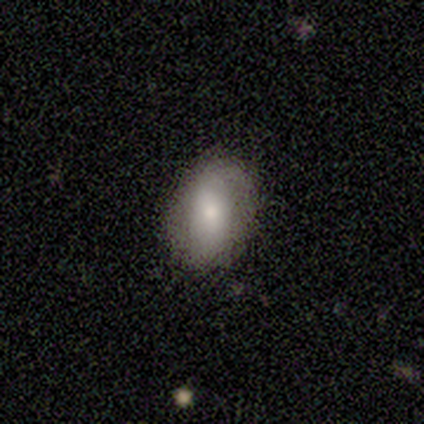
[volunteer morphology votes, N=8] type=smooth (50%, tied with featured or disk); roundness=in between (100%); merging=none (75%).